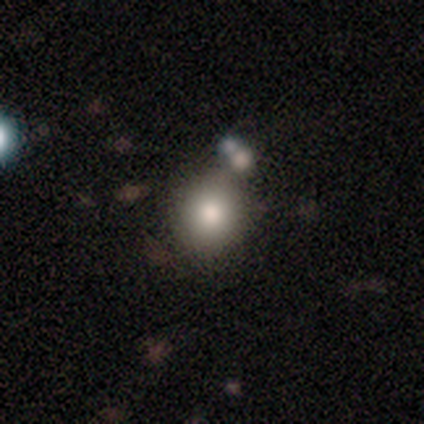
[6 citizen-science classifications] Smooth or featured? smooth (83%)
How rounded? round (80%)
Merging? none (83%)